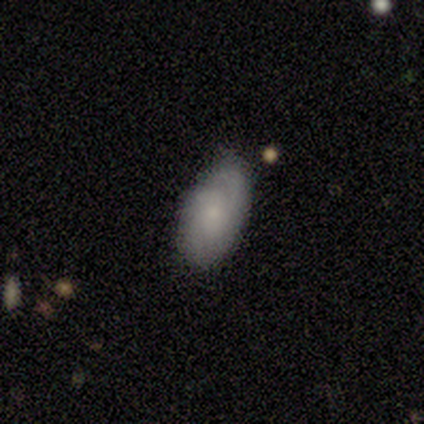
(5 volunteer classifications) smooth_or_featured: featured or disk (p=0.80) [alt: smooth p=0.20]
disk_edge_on: no (p=1.00)
bar: no (p=0.75) [alt: strong p=0.25]
has_spiral_arms: yes (p=0.50) [tied with: no p=0.50]
spiral_winding: medium (p=0.50) [tied with: loose p=0.50]
spiral_arm_count: 1 (p=0.50) [tied with: 3 p=0.50]
bulge_size: moderate (p=0.50) [tied with: small p=0.50]
merging: none (p=0.80) [alt: minor disturbance p=0.20]